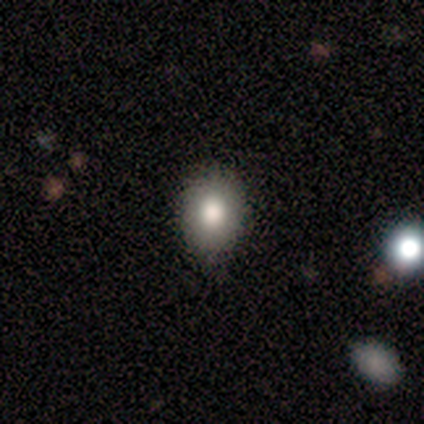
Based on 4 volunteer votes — smooth_or_featured: smooth (p=1.00)
how_rounded: round (p=0.50) [tied with: in between p=0.50]
merging: none (p=1.00)